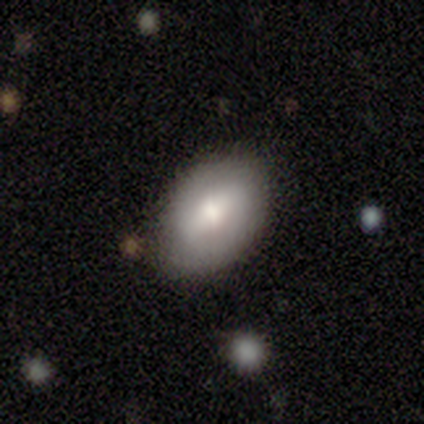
smooth-or-featured: smooth: 60% | featured or disk: 40% | star or artifact: 0%
  how-rounded: in between: 67% | round: 33% | cigar-shaped: 0%
  merging: none: 80% | minor disturbance: 20% | major disturbance: 0% | merger: 0%